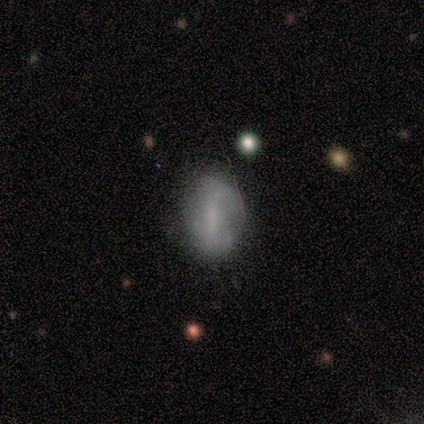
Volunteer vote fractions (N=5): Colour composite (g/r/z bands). It shows a smooth galaxy with no disk features (80%) that is in between round and cigar-shaped (75%). Merging: none (60%).